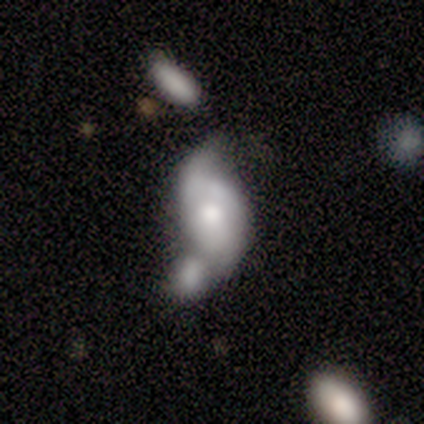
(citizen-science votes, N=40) Morphology: type=featured or disk (80%); edge-on=no (97%); bar=no (77%); spiral arms=yes (74%); winding=loose (65%); arm count=2 (70%); bulge=moderate (52%); merging=merger (49%).